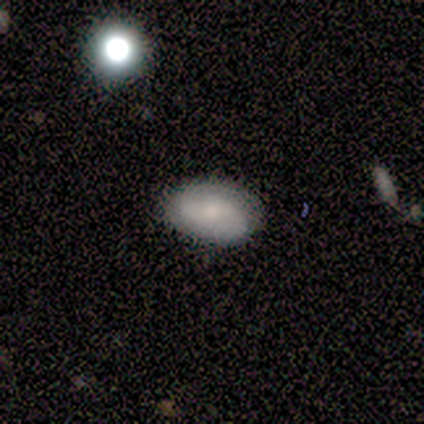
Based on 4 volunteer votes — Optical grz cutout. It shows a smooth galaxy with no disk features (50%) that is in between round and cigar-shaped (100%). Merging: none (100%).